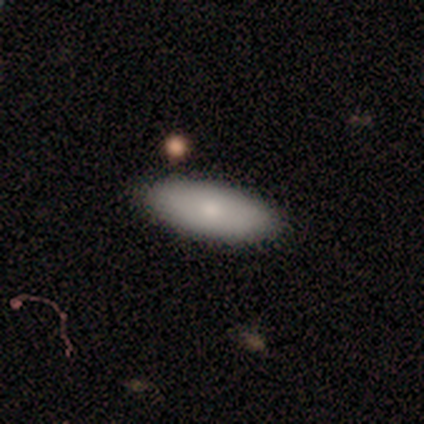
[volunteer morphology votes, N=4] Overall: smooth (75%). How rounded: in between (100%). Merging: none (100%).